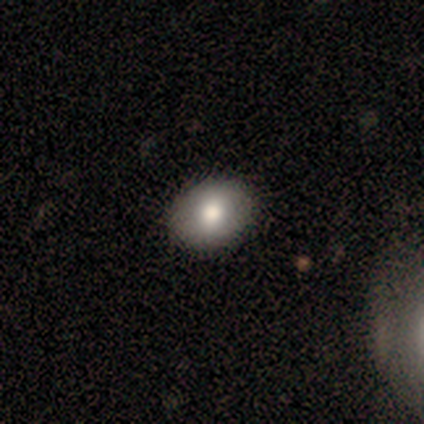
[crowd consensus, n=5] Morphology: type=smooth (60%); roundness=in between (67%); merging=none (80%).